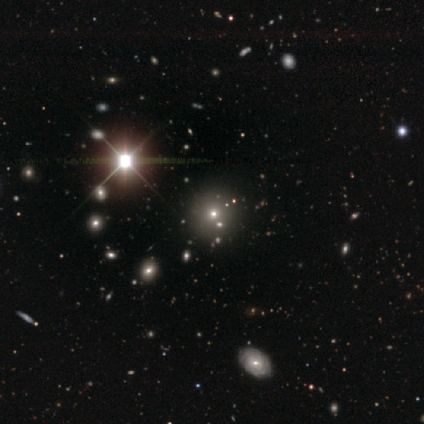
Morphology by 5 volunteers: Smooth or featured? smooth (60%)
How rounded? round (100%)
Merging? none (67%)